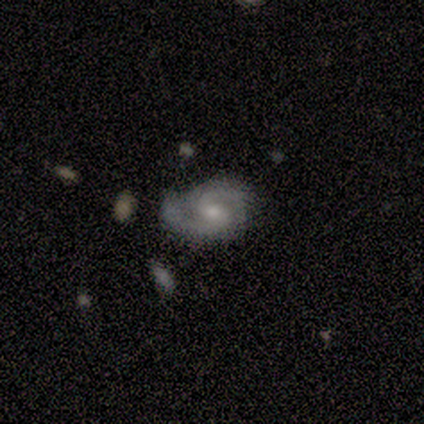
Smooth or featured? featured or disk (80%)
Edge-on disk? no (100%)
Bar? weak (75%)
Spiral arms? yes (100%)
Spiral winding? tight (50%)
Spiral arm count? 2 (100%)
Bulge size? moderate (50%, tied with small)
Merging? none (60%)